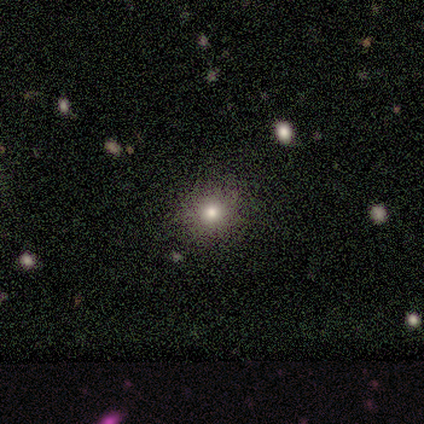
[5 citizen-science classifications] Q: Smooth or featured?
A: smooth (40%); tied with: star or artifact (40%)
Q: How rounded?
A: round (100%)
Q: Merging?
A: none (67%); runner-up: minor disturbance (33%)